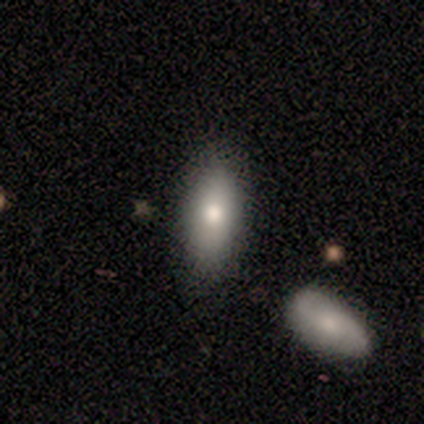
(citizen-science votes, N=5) Smooth or featured: smooth — 80% (featured or disk — 20%)
How rounded: in between — 50% (tied with cigar-shaped — 50%)
Merging: none — 60% (minor disturbance — 20%)